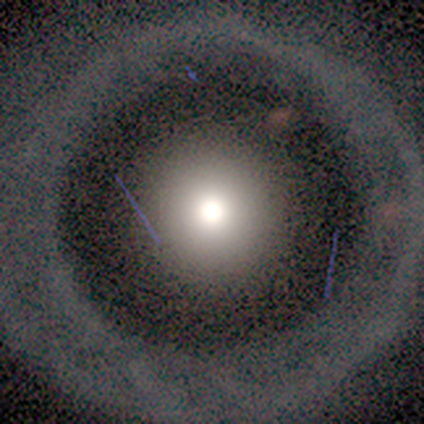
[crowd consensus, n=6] A smooth galaxy with no disk features (33%, tied with featured or disk and star or artifact) that is round (100%).

Vote fractions:
- Smooth or featured? smooth: 33% (tied) / featured or disk: 33% (tied) / star or artifact: 33% (tied)
- How rounded? round: 100% / in between: 0% / cigar-shaped: 0%
- Merging? none: 100% / minor disturbance: 0% / major disturbance: 0% / merger: 0%